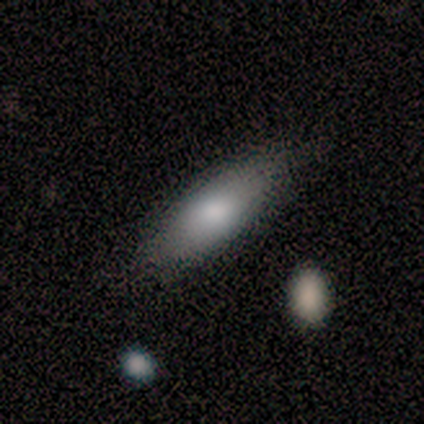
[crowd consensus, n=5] Q: Smooth or featured?
A: smooth (80%); runner-up: featured or disk (20%)
Q: How rounded?
A: in between (100%)
Q: Merging?
A: none (100%)